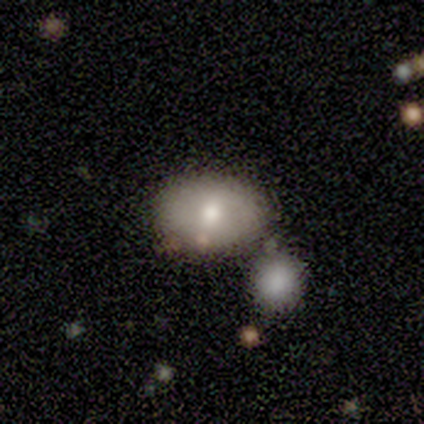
This is likely a featured or disk galaxy (60%). It is clearly not viewed edge-on (100%). Bar: likely no (67%). Spiral arm pattern: clearly no (100%). Central bulge: clearly moderate (100%). Merging: possibly minor disturbance (50%, tied with merger).